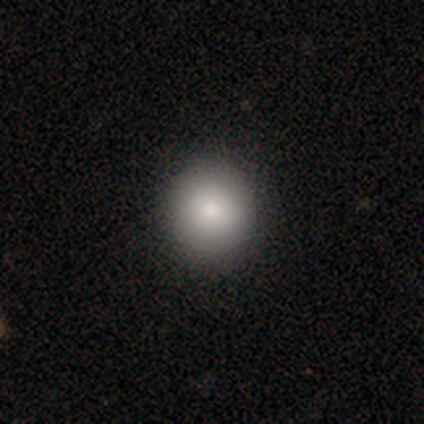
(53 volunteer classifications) smooth_or_featured: smooth (p=0.81) [alt: featured or disk p=0.09]
how_rounded: round (p=0.91) [alt: in between p=0.09]
merging: none (p=0.90) [alt: minor disturbance p=0.10]